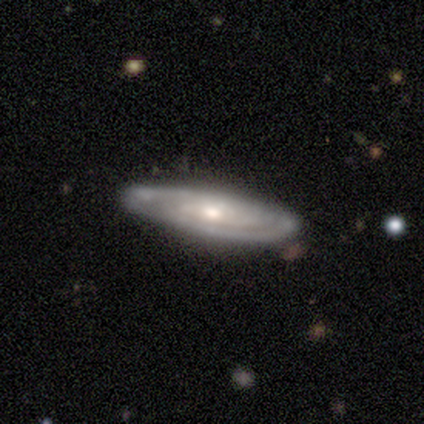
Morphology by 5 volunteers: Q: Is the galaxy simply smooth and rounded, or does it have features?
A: featured or disk — 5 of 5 (100%).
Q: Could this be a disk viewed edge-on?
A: no — 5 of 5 (100%).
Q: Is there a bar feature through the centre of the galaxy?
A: no — 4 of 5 (80%).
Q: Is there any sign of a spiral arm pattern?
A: yes — 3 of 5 (60%).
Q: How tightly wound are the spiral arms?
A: medium — 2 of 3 (67%).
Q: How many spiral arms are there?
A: can't tell — 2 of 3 (67%).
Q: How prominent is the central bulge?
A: moderate — 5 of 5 (100%).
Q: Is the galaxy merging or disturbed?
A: none — 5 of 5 (100%).